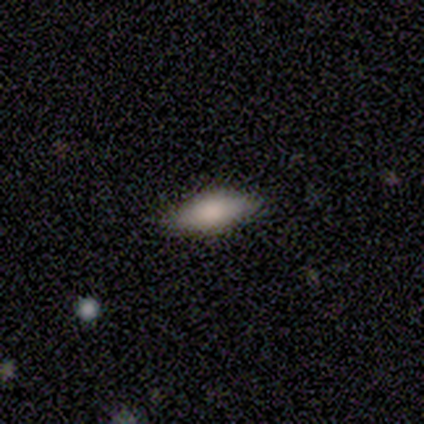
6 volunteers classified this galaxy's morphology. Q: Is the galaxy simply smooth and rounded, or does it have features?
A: smooth — 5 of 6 (83%).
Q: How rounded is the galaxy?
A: in between — 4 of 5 (80%).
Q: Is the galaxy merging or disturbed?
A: none — 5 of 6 (83%).